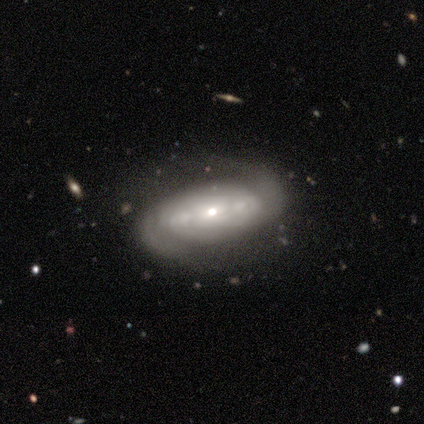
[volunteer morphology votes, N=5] Smooth or featured: featured or disk — 100%
Edge-on disk: no — 100%
Bar: no — 80% (weak — 20%)
Spiral arms: yes — 60% (no — 40%)
Spiral winding: tight — 67% (loose — 33%)
Spiral arm count: 2 — 100%
Bulge size: moderate — 40% (tied with small — 40%)
Merging: none — 60% (minor disturbance — 40%)